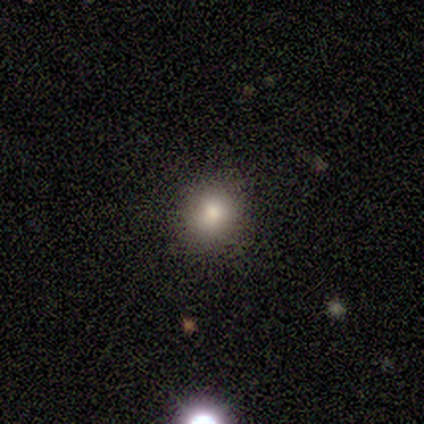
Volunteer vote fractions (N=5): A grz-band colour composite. It shows a smooth galaxy with no disk features (100%) that is round (100%). Merging: none (80%).